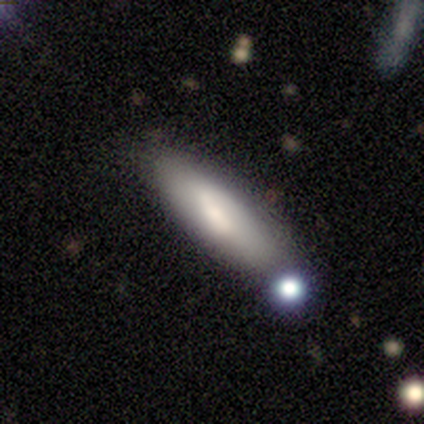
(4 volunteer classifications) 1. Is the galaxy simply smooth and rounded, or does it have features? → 50% smooth, 25% featured or disk, 25% star or artifact.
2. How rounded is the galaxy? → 50% in between (tied), 50% cigar-shaped (tied), 0% round.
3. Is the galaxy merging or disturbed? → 100% none, 0% minor disturbance, 0% major disturbance, 0% merger.